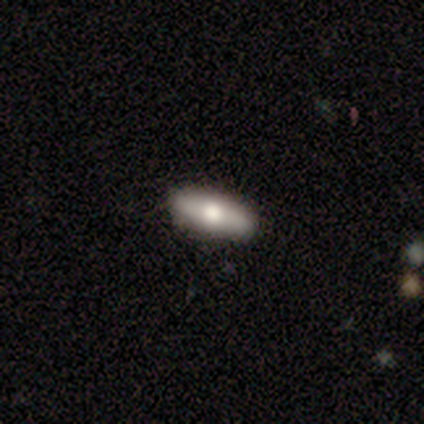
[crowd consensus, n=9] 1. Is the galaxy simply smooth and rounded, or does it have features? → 67% smooth, 33% featured or disk, 0% star or artifact.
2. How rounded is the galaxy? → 50% in between (tied), 50% cigar-shaped (tied), 0% round.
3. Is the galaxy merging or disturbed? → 67% none, 33% minor disturbance, 0% major disturbance, 0% merger.